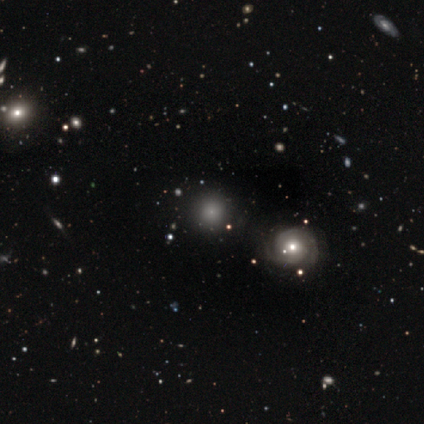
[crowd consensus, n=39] Morphology: type=smooth (49%); roundness=round (89%); merging=none (88%).